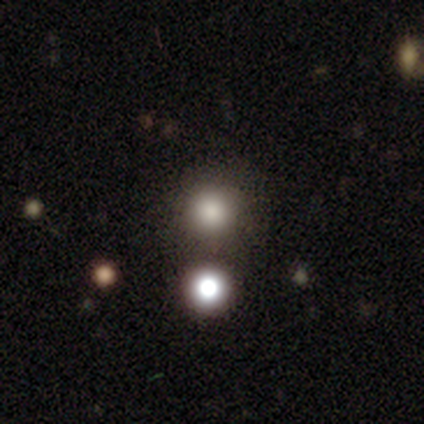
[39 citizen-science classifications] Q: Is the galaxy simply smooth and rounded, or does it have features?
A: smooth — 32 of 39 (82%).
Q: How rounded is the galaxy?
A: round — 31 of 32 (97%).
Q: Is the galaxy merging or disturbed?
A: none — 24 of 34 (71%).